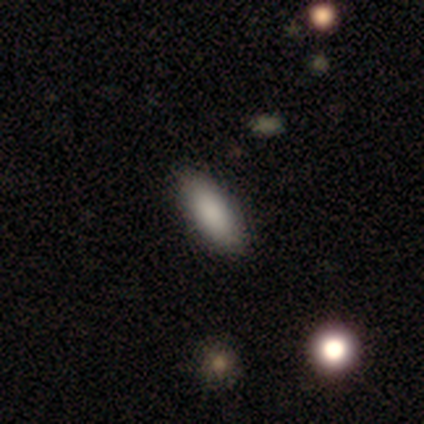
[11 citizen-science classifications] smooth-or-featured: smooth: 91% | star or artifact: 9% | featured or disk: 0%
  how-rounded: in between: 90% | cigar-shaped: 10% | round: 0%
  merging: none: 90% | minor disturbance: 10% | major disturbance: 0% | merger: 0%